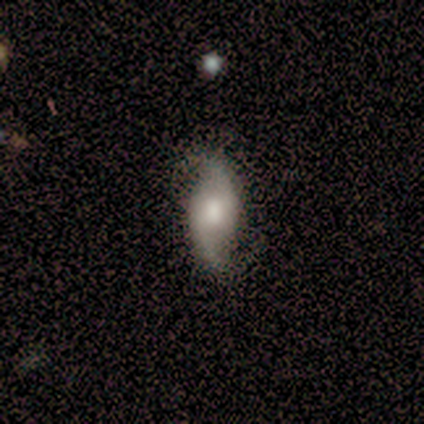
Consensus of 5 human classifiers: Morphology: type=featured or disk (80%); edge-on=no (100%); bar=no (75%); spiral arms=yes (100%); winding=loose (75%); arm count=2 (100%); bulge=large (50%); merging=none (60%).